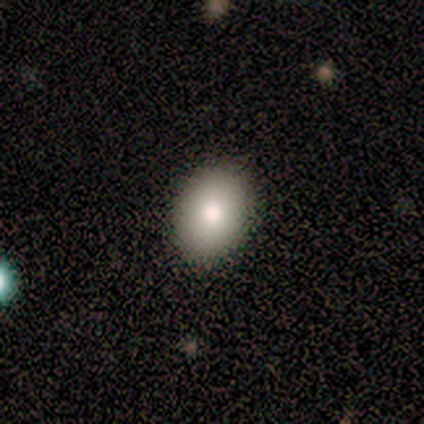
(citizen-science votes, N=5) A smooth galaxy with no disk features (80%) that is in between round and cigar-shaped (75%).

Vote fractions:
- Smooth or featured? smooth: 80% / featured or disk: 20% / star or artifact: 0%
- How rounded? in between: 75% / round: 25% / cigar-shaped: 0%
- Merging? none: 100% / minor disturbance: 0% / major disturbance: 0% / merger: 0%